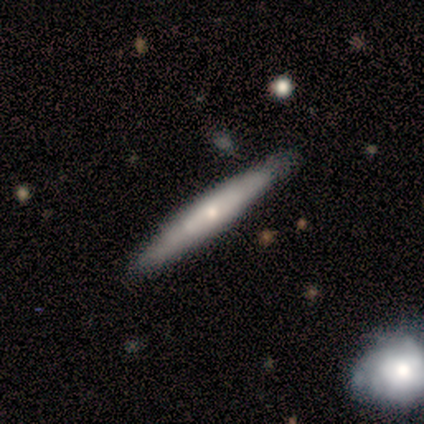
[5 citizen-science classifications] Morphology: type=smooth (100%); roundness=cigar-shaped (100%); merging=none (100%).